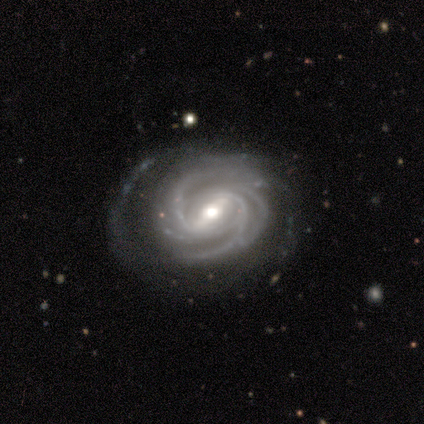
Smooth or featured: featured or disk — 100%
Edge-on disk: no — 100%
Bar: strong — 50% (tied with weak — 50%)
Spiral arms: yes — 100%
Spiral winding: tight — 50% (medium — 25%)
Spiral arm count: 4 — 50% (3 — 25%)
Bulge size: moderate — 50% (large — 25%)
Merging: none — 75% (major disturbance — 25%)